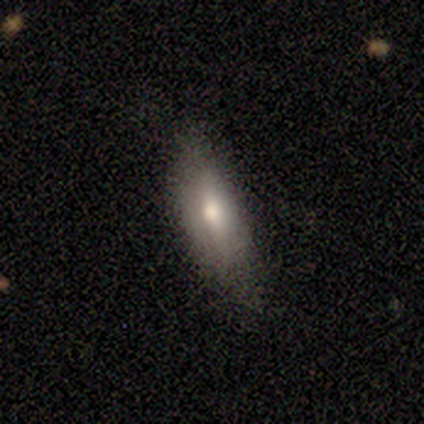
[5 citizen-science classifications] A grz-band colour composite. It shows a smooth galaxy with no disk features (100%) that is in between round and cigar-shaped (60%). Merging: none (60%).